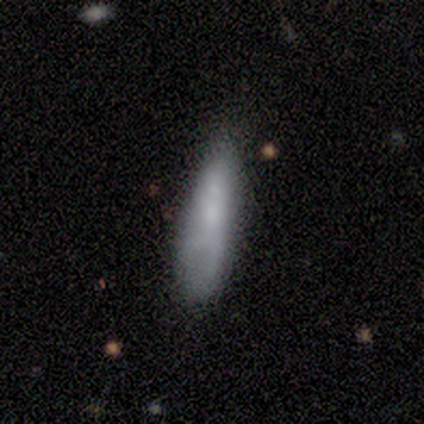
Smooth or featured? smooth (86%)
How rounded? cigar-shaped (67%)
Merging? minor disturbance (71%)